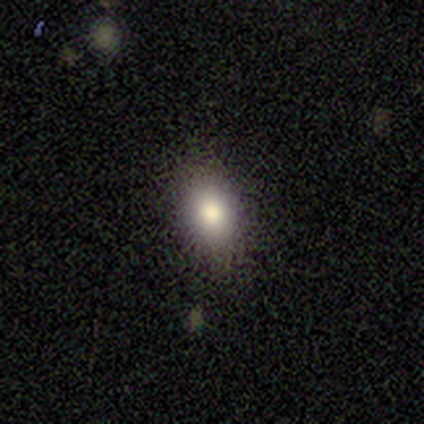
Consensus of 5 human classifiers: Q: Smooth or featured?
A: smooth (60%); runner-up: featured or disk (40%)
Q: How rounded?
A: in between (67%); runner-up: round (33%)
Q: Merging?
A: none (80%); runner-up: minor disturbance (20%)